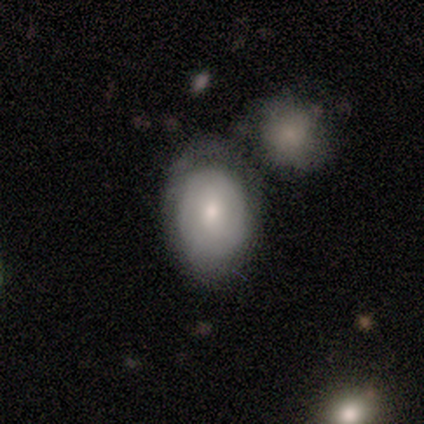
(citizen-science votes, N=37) smooth-or-featured: smooth: 59% | featured or disk: 38% | star or artifact: 3%
  how-rounded: in between: 82% | round: 18% | cigar-shaped: 0%
  merging: none: 53% | merger: 33% | major disturbance: 8% | minor disturbance: 6%